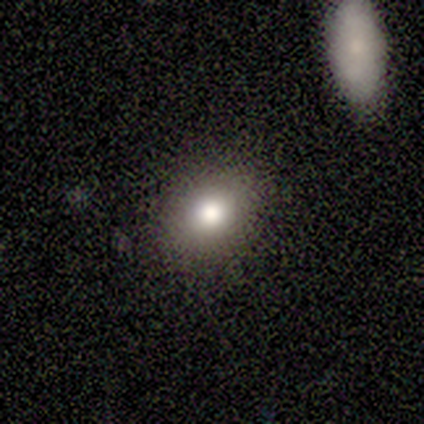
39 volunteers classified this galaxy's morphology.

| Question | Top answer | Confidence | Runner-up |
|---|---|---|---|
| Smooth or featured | smooth | 72% | star or artifact (18%) |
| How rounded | round | 54% | in between (46%) |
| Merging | none | 75% | minor disturbance (22%) |